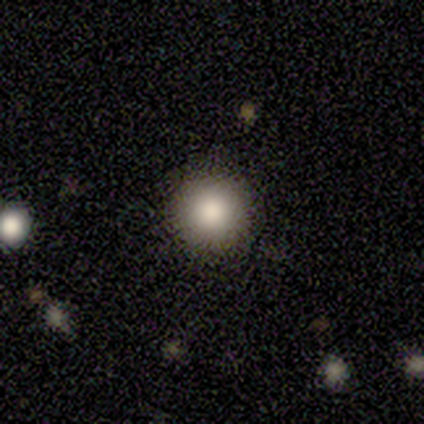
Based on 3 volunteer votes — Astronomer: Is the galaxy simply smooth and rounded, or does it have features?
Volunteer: smooth — 67%.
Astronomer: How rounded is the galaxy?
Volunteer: round — 50%, tied with in between at 50%.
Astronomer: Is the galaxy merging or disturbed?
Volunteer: none — 50%, tied with minor disturbance at 50%.